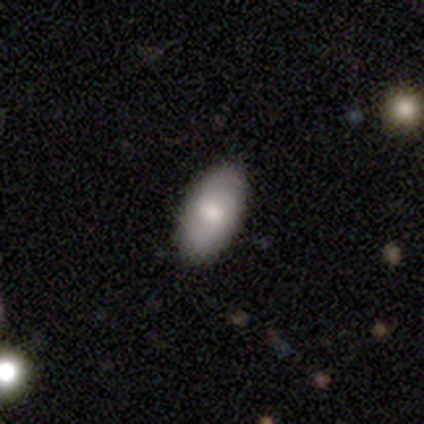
Q: Smooth or featured?
A: smooth (54%); runner-up: featured or disk (41%)
Q: How rounded?
A: in between (100%)
Q: Merging?
A: none (86%); runner-up: minor disturbance (8%)